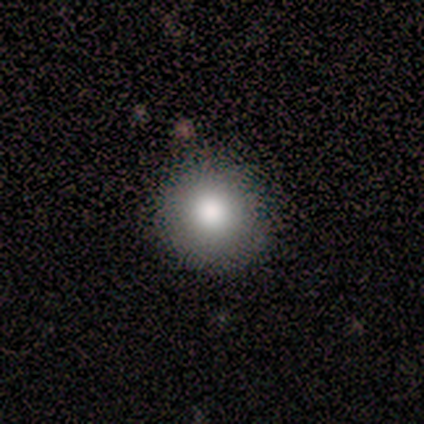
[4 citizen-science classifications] Smooth or featured? 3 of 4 (75%) said smooth. How rounded? 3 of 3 (100%) said round. Merging? 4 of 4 (100%) said none.